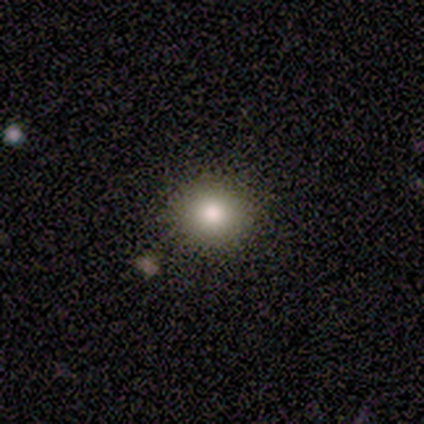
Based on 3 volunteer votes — This is clearly a smooth galaxy (100%). How rounded: likely round (67%). Merging: clearly none (100%).